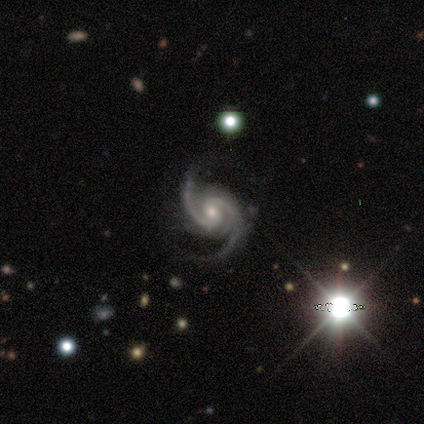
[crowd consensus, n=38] Overall: featured or disk (100%). Edge-on disk: no (100%). Bar: no (53%; weak 42%). Spiral arms: yes (100%). Spiral arm count: 2 (95%). Spiral winding: medium (58%; tight 24%). Bulge size: moderate (53%; small 45%). Merging: none (61%).